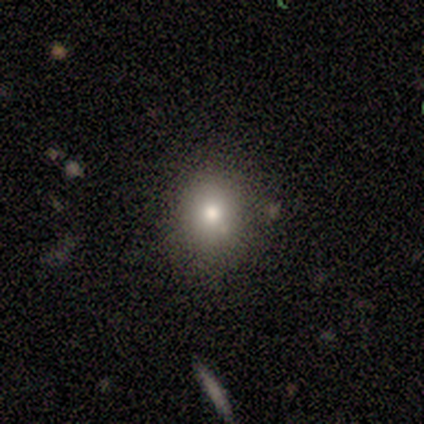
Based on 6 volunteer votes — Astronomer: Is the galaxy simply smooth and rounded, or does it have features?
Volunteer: smooth — 50% (runner-up: star or artifact, 33%).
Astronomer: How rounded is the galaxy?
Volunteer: round — 100%.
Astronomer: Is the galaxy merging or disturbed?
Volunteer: none — 100%.